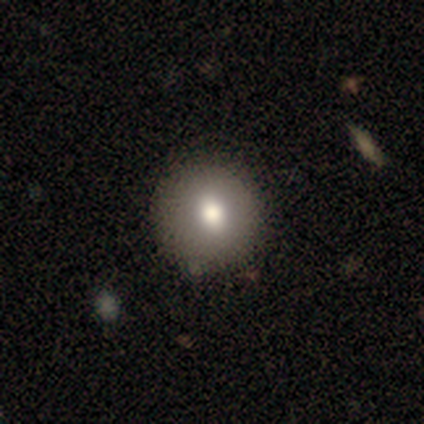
smooth-or-featured: smooth: 71% | featured or disk: 24% | star or artifact: 5%
  how-rounded: round: 93% | in between: 7% | cigar-shaped: 0%
  merging: none: 72% | minor disturbance: 3% | major disturbance: 0% | merger: 0%